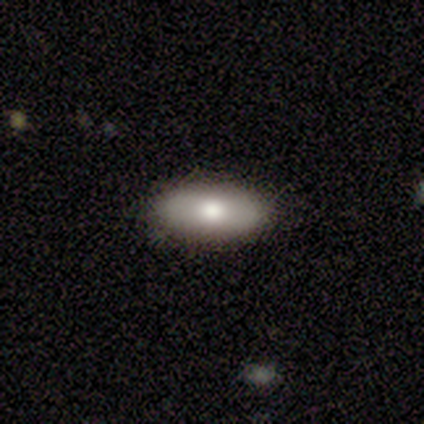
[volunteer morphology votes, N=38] Smooth or featured? 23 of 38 (61%) said smooth. How rounded? 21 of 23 (91%) said in between. Merging? 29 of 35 (83%) said none.